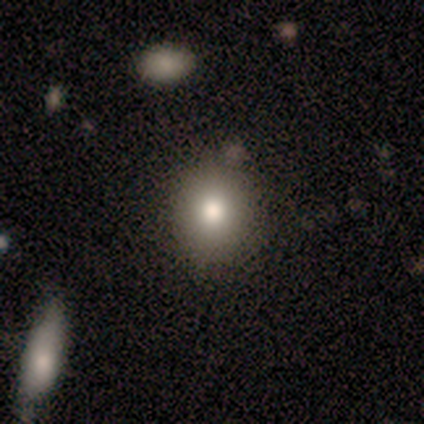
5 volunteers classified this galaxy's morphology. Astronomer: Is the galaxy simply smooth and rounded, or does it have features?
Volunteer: smooth — 60%.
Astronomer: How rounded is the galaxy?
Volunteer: round — 100%.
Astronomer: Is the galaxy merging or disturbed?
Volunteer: none — 100%.